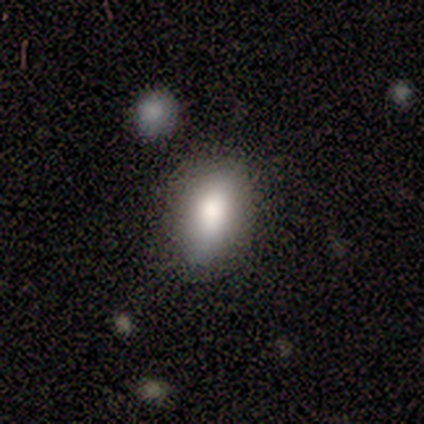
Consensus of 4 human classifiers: A smooth galaxy with no disk features (100%) that is in between round and cigar-shaped (75%). Merging: none (75%).